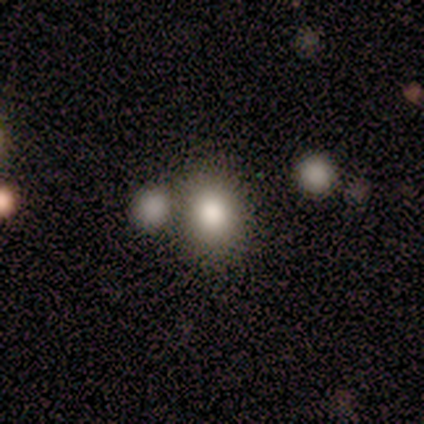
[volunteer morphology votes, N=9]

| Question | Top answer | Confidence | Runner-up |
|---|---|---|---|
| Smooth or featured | smooth | 56% | featured or disk (22%) |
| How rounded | in between | 60% | round (40%) |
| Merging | none | 57% | merger (29%) |